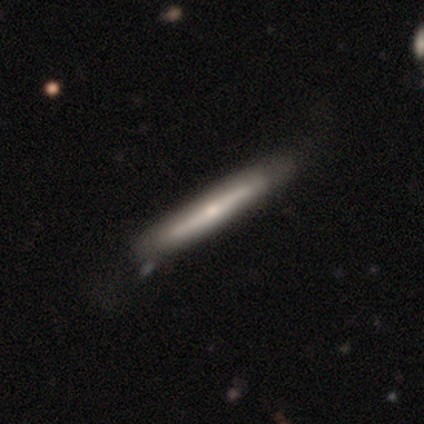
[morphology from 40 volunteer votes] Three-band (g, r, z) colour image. It shows a featured or disk galaxy (62%) viewed edge-on (100%) with a rounded central bulge (68%). Merging: none (48%).